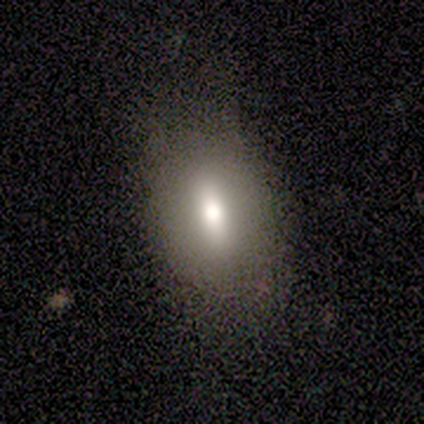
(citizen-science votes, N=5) smooth 40% (tied), featured or disk 40% (tied), star or artifact 20%. Down the decision tree: how rounded — in between (50%, tied with cigar-shaped); merging — minor disturbance (50%).